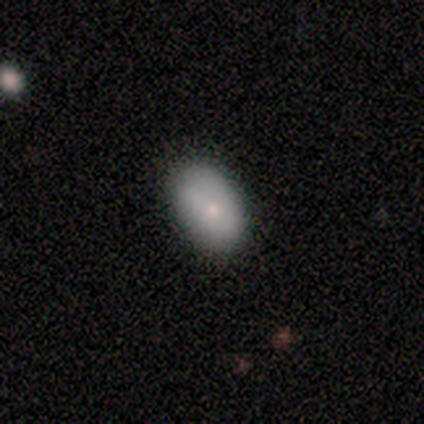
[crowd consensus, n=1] smooth_or_featured: smooth (p=1.00)
how_rounded: in between (p=1.00)
merging: minor disturbance (p=1.00)